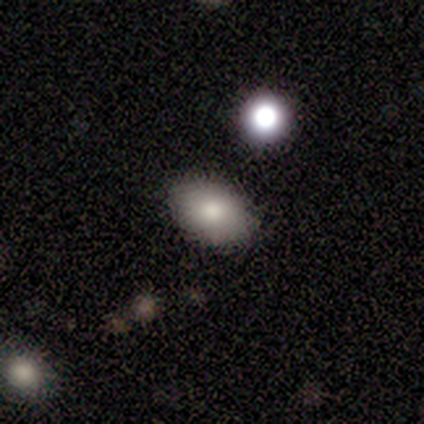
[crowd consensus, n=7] Smooth or featured? 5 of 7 (71%) said smooth. How rounded? 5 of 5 (100%) said in between. Merging? 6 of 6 (100%) said none.